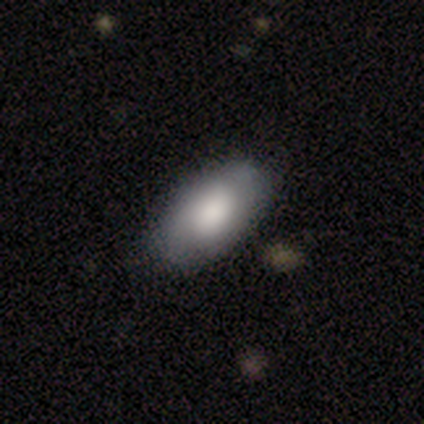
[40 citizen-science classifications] Q: Smooth or featured?
A: smooth (68%); runner-up: featured or disk (22%)
Q: How rounded?
A: in between (100%)
Q: Merging?
A: none (67%); runner-up: minor disturbance (17%)